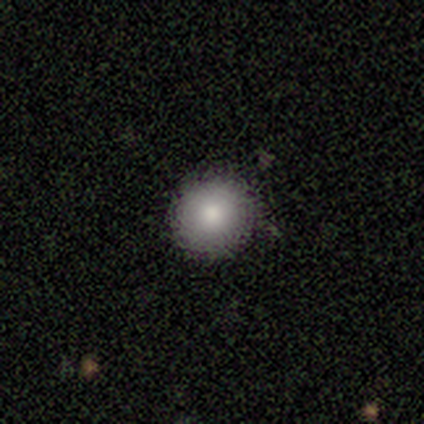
Smooth or featured? smooth (100%)
How rounded? round (100%)
Merging? none (100%)